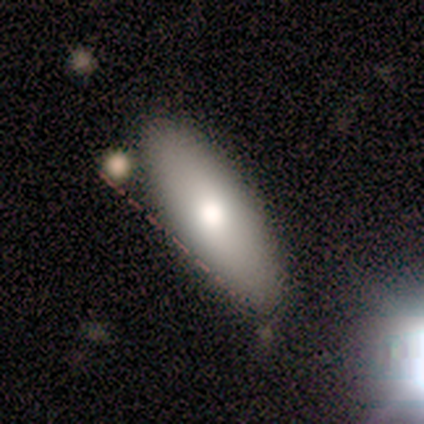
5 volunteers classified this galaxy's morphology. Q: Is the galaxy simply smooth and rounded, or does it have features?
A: smooth — 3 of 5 (60%).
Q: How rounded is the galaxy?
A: in between — 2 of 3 (67%).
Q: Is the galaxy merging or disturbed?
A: none — 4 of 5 (80%).